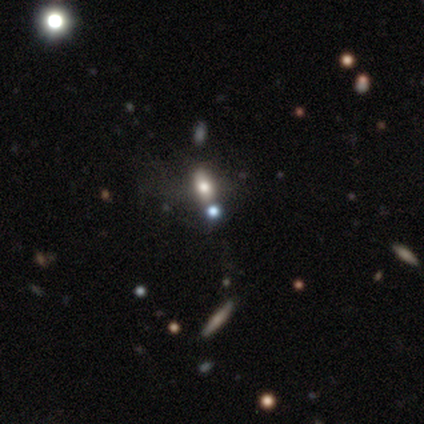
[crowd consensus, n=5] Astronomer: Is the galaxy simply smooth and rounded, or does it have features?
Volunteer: smooth — 60%.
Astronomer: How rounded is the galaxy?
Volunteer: in between — 67%.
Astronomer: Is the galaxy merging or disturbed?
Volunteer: none — 75%.